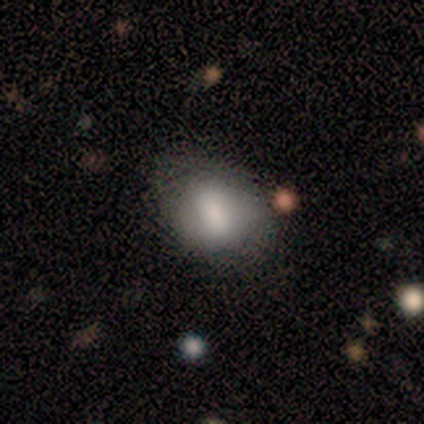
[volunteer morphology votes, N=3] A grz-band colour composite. It shows a smooth galaxy with no disk features (33%, tied with featured or disk and star or artifact) that is in between round and cigar-shaped (100%). Merging: none (100%).